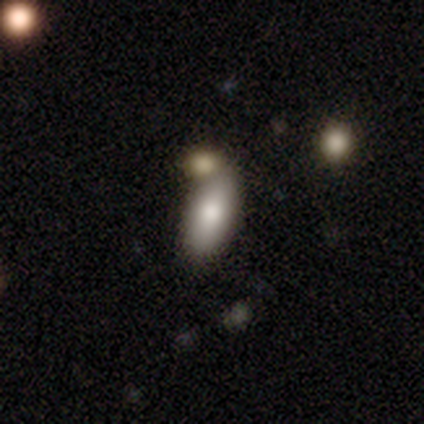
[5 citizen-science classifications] Overall: smooth (80%). How rounded: in between (75%). Merging: none (60%; merger 40%).